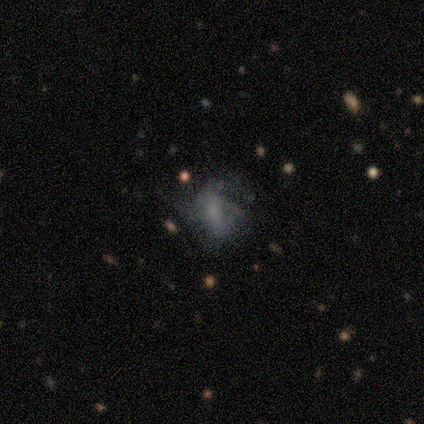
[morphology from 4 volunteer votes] Smooth or featured? 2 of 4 (50%, tied with featured or disk) said smooth. How rounded? 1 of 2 (50%, tied with in between) said round. Merging? 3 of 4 (75%) said major disturbance.